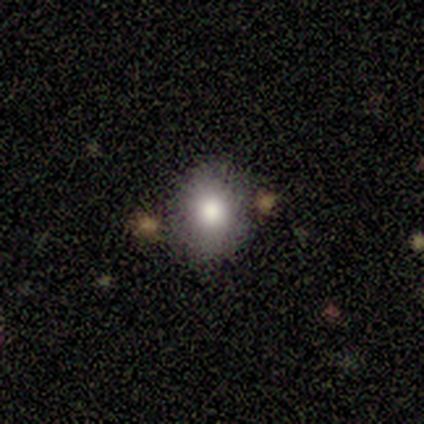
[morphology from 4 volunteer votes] Smooth or featured?
  - smooth: 75% *
  - featured or disk: 25%
  - star or artifact: 0%
How rounded?
  - round: 67% *
  - in between: 33%
  - cigar-shaped: 0%
Merging?
  - none: 75% *
  - minor disturbance: 25%
  - major disturbance: 0%
  - merger: 0%